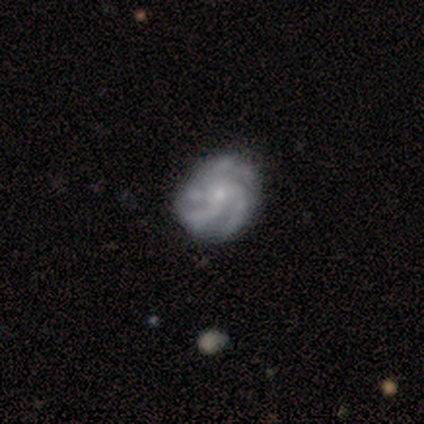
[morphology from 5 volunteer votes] Smooth or featured?
  - featured or disk: 100% *
  - smooth: 0%
  - star or artifact: 0%
Edge-on disk?
  - no: 100% *
  - yes: 0%
Bar?
  - no: 100% *
  - strong: 0%
  - weak: 0%
Spiral arms?
  - yes: 100% *
  - no: 0%
Spiral winding?
  - medium: 60% *
  - tight: 20%
  - loose: 20%
Spiral arm count?
  - 4: 80% *
  - 3: 20%
  - 1: 0%
  - 2: 0%
  - more than 4: 0%
  - can't tell: 0%
Bulge size?
  - small: 80% *
  - moderate: 20%
  - dominant: 0%
  - large: 0%
  - none: 0%
Merging?
  - none: 100% *
  - minor disturbance: 0%
  - major disturbance: 0%
  - merger: 0%